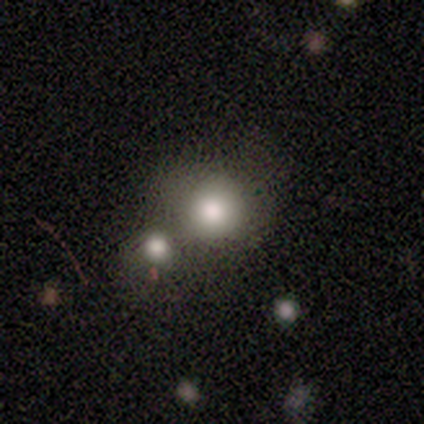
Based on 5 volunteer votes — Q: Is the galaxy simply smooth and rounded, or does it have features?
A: smooth — 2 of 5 (40%, tied with featured or disk).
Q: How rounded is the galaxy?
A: round — 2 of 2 (100%).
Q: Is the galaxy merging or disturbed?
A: merger — 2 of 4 (50%).